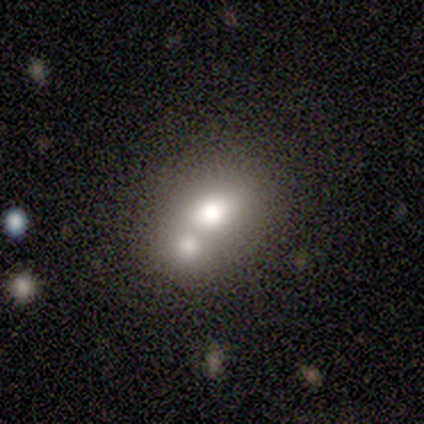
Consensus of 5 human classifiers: Smooth or featured? 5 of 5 (100%) said smooth. How rounded? 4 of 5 (80%) said round. Merging? 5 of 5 (100%) said merger.